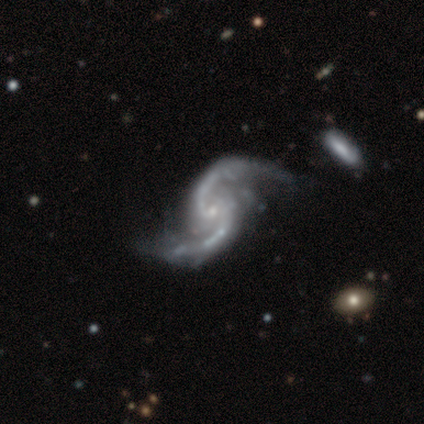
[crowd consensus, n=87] This is clearly a featured or disk galaxy (95%). It is clearly not viewed edge-on (99%). Bar: likely no (67%). Spiral arm pattern: clearly yes (99%). Spiral arm count: clearly 2 (99%). Spiral winding: possibly loose (56%). Central bulge: likely small (78%). Merging: likely none (70%).